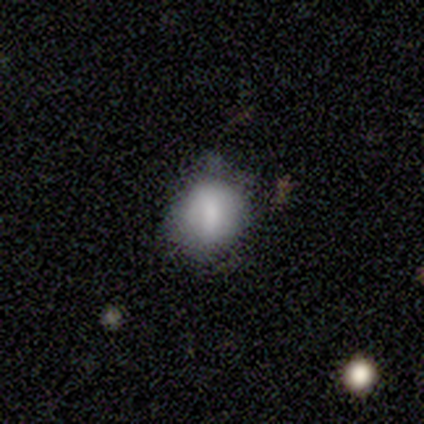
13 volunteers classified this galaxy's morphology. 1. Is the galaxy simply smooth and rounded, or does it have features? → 69% smooth, 23% featured or disk, 8% star or artifact.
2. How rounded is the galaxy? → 56% in between, 44% round, 0% cigar-shaped.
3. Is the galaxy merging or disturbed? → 58% none, 33% major disturbance, 8% merger, 0% minor disturbance.